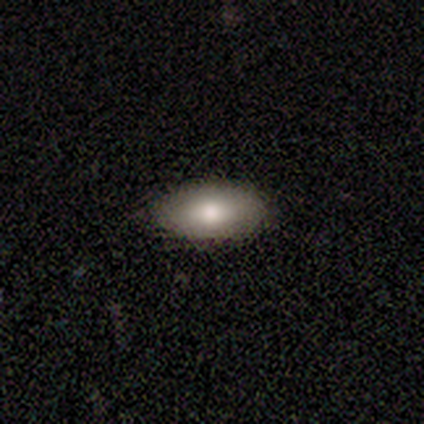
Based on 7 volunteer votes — A smooth galaxy with no disk features (71%) that is in between round and cigar-shaped (100%). Merging: none (86%).